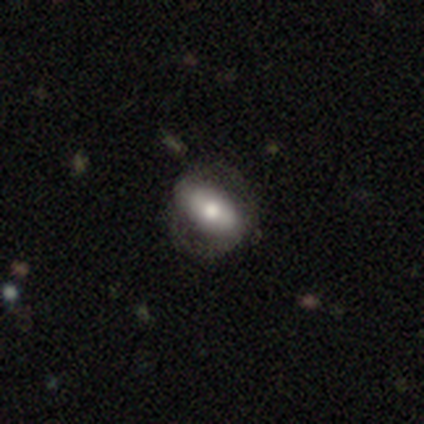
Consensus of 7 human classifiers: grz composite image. It shows a featured or disk galaxy (57%) with a strong bar (50%), no spiral arms (75%) and a moderate central bulge (75%). Merging: none (60%).